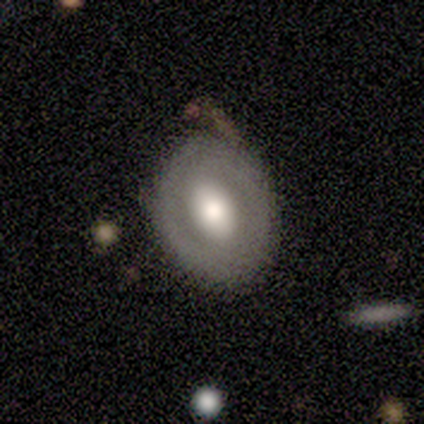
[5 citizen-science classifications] Q: Smooth or featured?
A: featured or disk (80%); runner-up: smooth (20%)
Q: Edge-on disk?
A: no (75%); runner-up: yes (25%)
Q: Bar?
A: no (67%); runner-up: weak (33%)
Q: Spiral arms?
A: no (100%)
Q: Bulge size?
A: large (100%)
Q: Merging?
A: none (60%); runner-up: minor disturbance (20%)